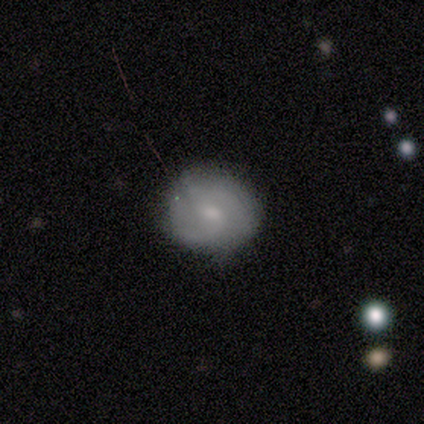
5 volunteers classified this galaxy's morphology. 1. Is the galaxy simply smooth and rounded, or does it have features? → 60% featured or disk, 40% smooth, 0% star or artifact.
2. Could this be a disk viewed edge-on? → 100% no, 0% yes.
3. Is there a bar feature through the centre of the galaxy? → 67% no, 33% weak, 0% strong.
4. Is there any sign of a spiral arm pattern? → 67% no, 33% yes.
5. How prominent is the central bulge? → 67% moderate, 33% small, 0% dominant, 0% large, 0% none.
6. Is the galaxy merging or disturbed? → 100% none, 0% minor disturbance, 0% major disturbance, 0% merger.